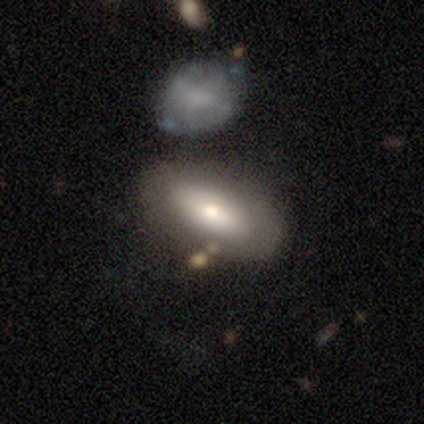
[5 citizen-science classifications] smooth_or_featured: featured or disk (p=0.80) [alt: smooth p=0.20]
disk_edge_on: no (p=1.00)
bar: weak (p=0.50) [tied with: no p=0.50]
has_spiral_arms: no (p=1.00)
bulge_size: large (p=0.50) [alt: moderate p=0.25]
merging: none (p=0.60) [alt: minor disturbance p=0.20]